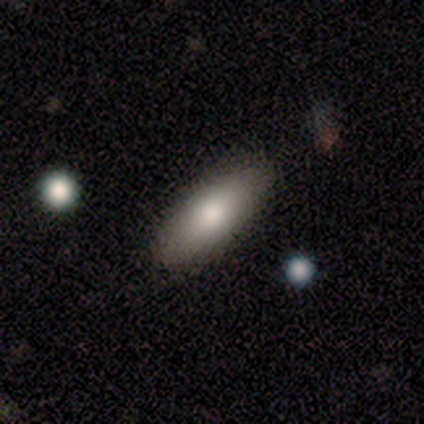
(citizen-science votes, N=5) This is clearly a smooth galaxy (80%). How rounded: clearly in between (100%). Merging: clearly none (80%).